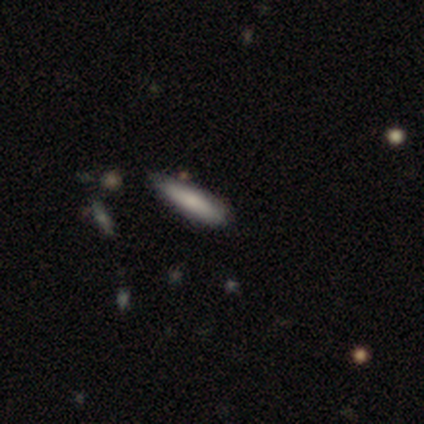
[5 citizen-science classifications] Overall: smooth (80%). How rounded: cigar-shaped (100%). Merging: none (80%).